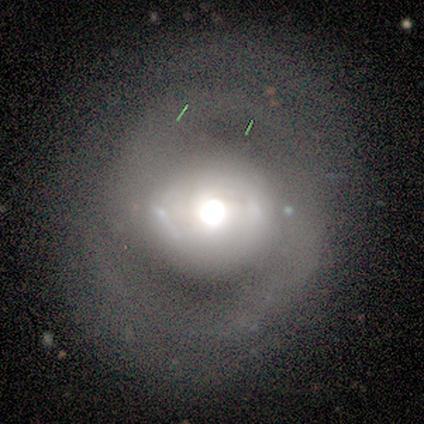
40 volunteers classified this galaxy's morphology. type=featured or disk (68%); edge-on=no (100%); bar=no (67%); spiral arms=yes (70%); winding=medium (47%); arm count=2 (79%); bulge=dominant (33%, tied with large); merging=none (64%).